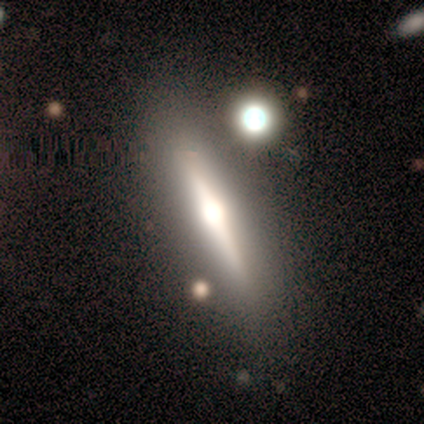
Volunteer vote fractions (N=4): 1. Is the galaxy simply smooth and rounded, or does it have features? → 75% smooth, 25% featured or disk, 0% star or artifact.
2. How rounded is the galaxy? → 67% in between, 33% cigar-shaped, 0% round.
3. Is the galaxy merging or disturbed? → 75% none, 25% minor disturbance, 0% major disturbance, 0% merger.